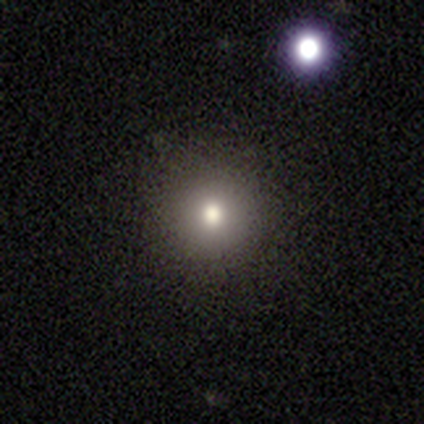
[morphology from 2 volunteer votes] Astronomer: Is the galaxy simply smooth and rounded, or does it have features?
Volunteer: smooth — 100%.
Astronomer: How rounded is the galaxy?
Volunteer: round — 100%.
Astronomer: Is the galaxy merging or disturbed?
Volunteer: none — 100%.